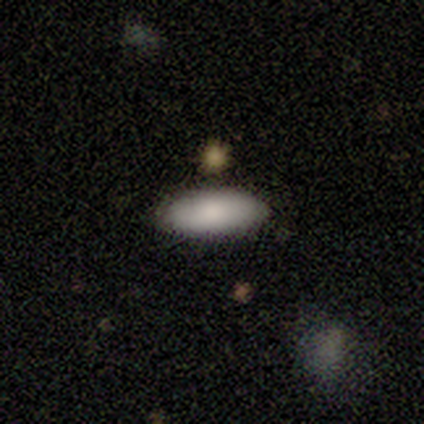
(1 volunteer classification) A smooth galaxy with no disk features (100%) that is in between round and cigar-shaped (100%).

Vote fractions:
- Smooth or featured? smooth: 100% / featured or disk: 0% / star or artifact: 0%
- How rounded? in between: 100% / round: 0% / cigar-shaped: 0%
- Merging? none: 100% / minor disturbance: 0% / major disturbance: 0% / merger: 0%